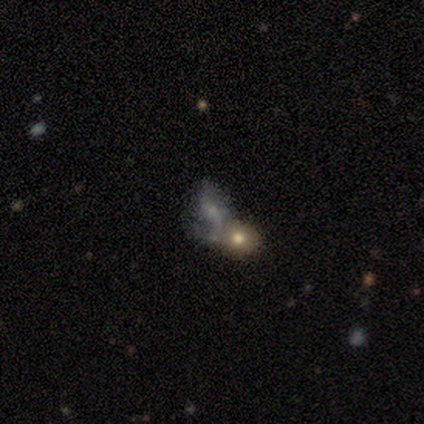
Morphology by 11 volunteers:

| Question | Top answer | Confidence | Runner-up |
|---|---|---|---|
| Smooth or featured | featured or disk | 73% | smooth (27%) |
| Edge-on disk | no | 88% | yes (12%) |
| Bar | no | 57% | strong (29%) |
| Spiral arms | yes | 57% | no (43%) |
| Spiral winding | loose | 75% | medium (25%) |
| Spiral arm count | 1 | 75% | can't tell (25%) |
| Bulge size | small | 43% | none (29%) |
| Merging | none | 55% | minor disturbance (18%) |